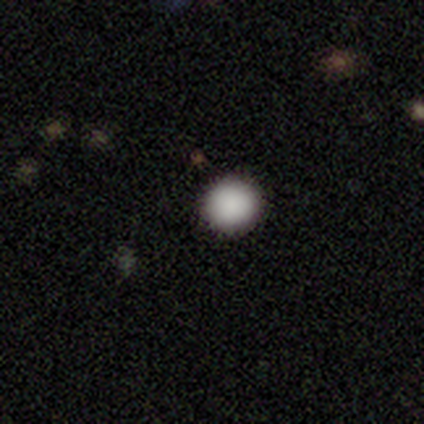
smooth 80%, star or artifact 20%, featured or disk 0%. Down the decision tree: how rounded — round (100%); merging — none (100%).